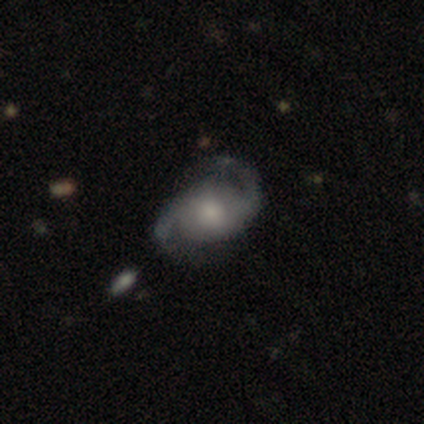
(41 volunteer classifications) Volunteers were most divided on "merging": none: 52%, minor disturbance: 30%, major disturbance: 15%, merger: 2%. More confident: edge-on disk — no (97%); spiral arms — yes (97%); spiral arm count — 2 (94%); smooth or featured — featured or disk (85%); bar — no (74%); bulge size — moderate (56%); spiral winding — medium (55%).